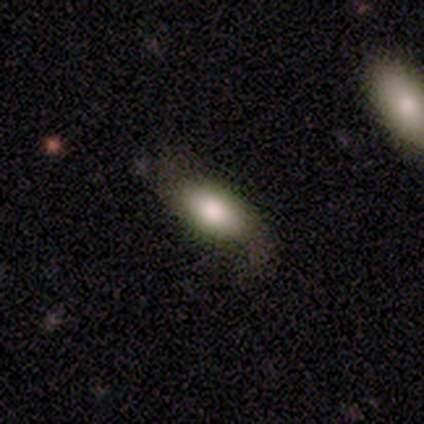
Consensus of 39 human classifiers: This appears to be a smooth galaxy with no disk features (69%) that is in between round and cigar-shaped (100%). Merging: none (66%).